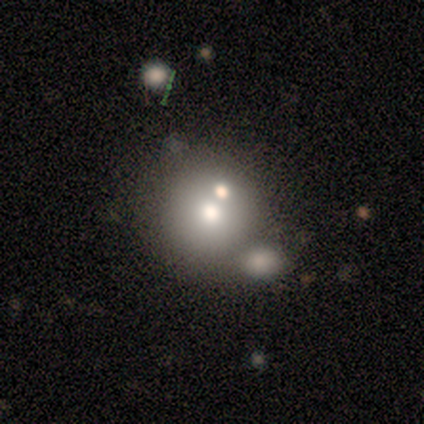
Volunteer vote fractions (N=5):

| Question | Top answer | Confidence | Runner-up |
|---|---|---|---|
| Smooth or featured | smooth | 80% | featured or disk (20%) |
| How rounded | round | 100% | — |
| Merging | merger | 80% | major disturbance (20%) |